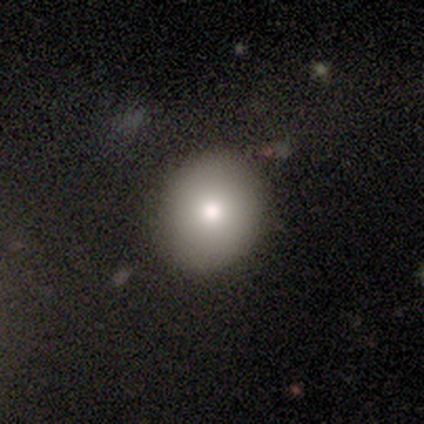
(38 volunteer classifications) smooth 76%, featured or disk 21%, star or artifact 3%. Down the decision tree: how rounded — round (66%); merging — none (95%).